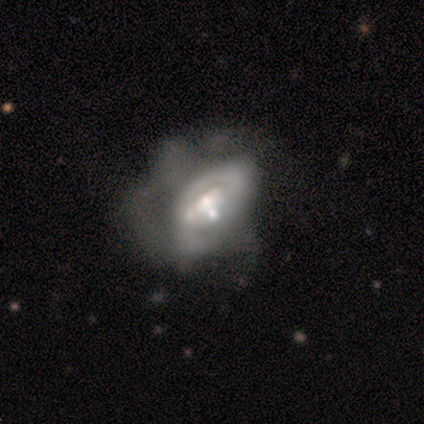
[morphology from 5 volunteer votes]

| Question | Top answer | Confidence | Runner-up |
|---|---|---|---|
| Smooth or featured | featured or disk | 60% | smooth (40%) |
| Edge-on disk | no | 100% | — |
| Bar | no | 67% | strong (33%) |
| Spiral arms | no | 100% | — |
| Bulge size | moderate | 67% | small (33%) |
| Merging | major disturbance | 60% | none (20%) |